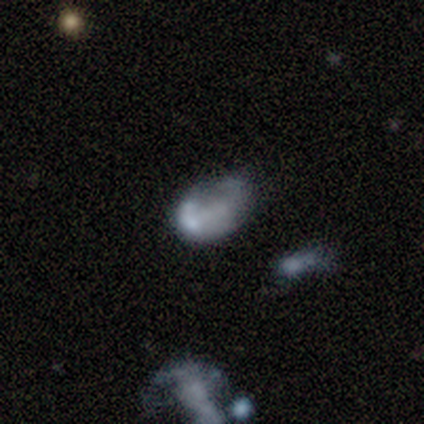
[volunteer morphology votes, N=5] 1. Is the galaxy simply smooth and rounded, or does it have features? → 60% smooth, 40% featured or disk, 0% star or artifact.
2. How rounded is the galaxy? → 100% in between, 0% round, 0% cigar-shaped.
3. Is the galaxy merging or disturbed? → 60% major disturbance, 40% none, 0% minor disturbance, 0% merger.